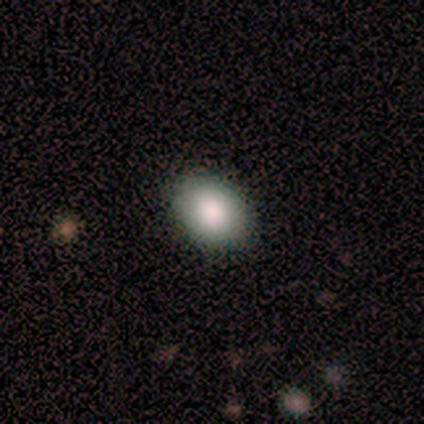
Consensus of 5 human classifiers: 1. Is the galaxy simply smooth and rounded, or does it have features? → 80% smooth, 20% featured or disk, 0% star or artifact.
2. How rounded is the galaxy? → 75% in between, 25% round, 0% cigar-shaped.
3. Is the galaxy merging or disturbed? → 100% none, 0% minor disturbance, 0% major disturbance, 0% merger.